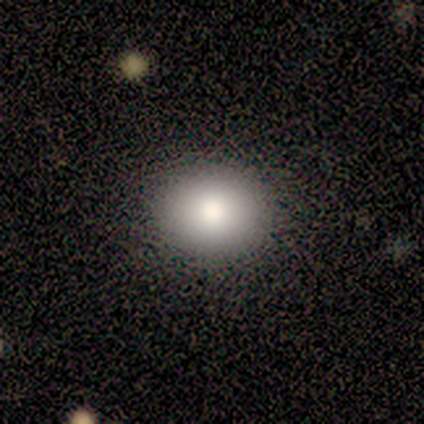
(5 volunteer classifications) A smooth galaxy with no disk features (80%) that is round (100%).

Vote fractions:
- Smooth or featured? smooth: 80% / featured or disk: 20% / star or artifact: 0%
- How rounded? round: 100% / in between: 0% / cigar-shaped: 0%
- Merging? none: 100% / minor disturbance: 0% / major disturbance: 0% / merger: 0%